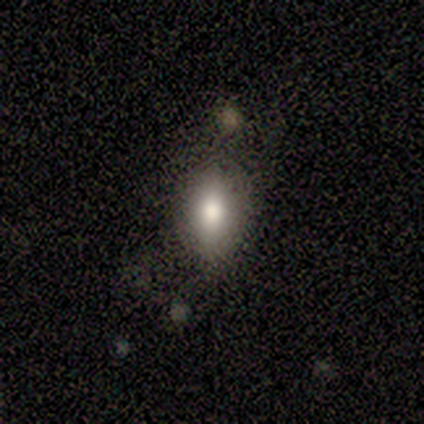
This is likely a smooth galaxy (60%). How rounded: clearly in between (100%). Merging: possibly none (50%, tied with minor disturbance).